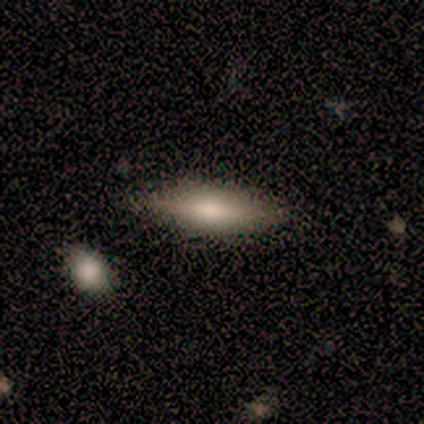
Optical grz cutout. It shows a smooth galaxy with no disk features (69%) that is in between round and cigar-shaped (78%). Merging: none (85%).